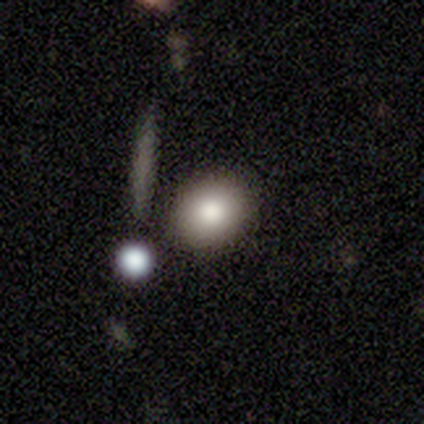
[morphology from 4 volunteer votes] A smooth galaxy with no disk features (50%, tied with featured or disk) that is round (50%, tied with in between).

Vote fractions:
- Smooth or featured? smooth: 50% (tied) / featured or disk: 50% (tied) / star or artifact: 0%
- How rounded? round: 50% (tied) / in between: 50% (tied) / cigar-shaped: 0%
- Merging? none: 50% / major disturbance: 25% / merger: 25% / minor disturbance: 0%